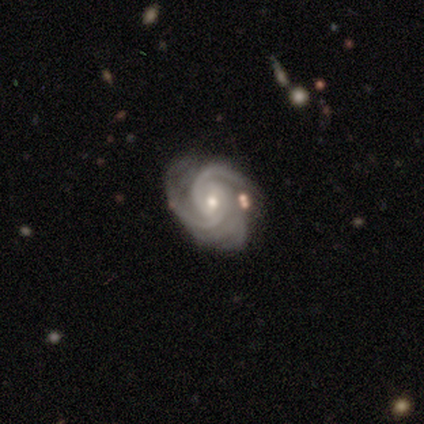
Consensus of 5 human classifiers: smooth_or_featured: featured or disk (p=1.00)
disk_edge_on: no (p=0.80) [alt: yes p=0.20]
bar: weak (p=0.50) [tied with: no p=0.50]
has_spiral_arms: yes (p=1.00)
spiral_winding: tight (p=0.75) [alt: medium p=0.25]
spiral_arm_count: 2 (p=0.50) [tied with: 4 p=0.50]
bulge_size: small (p=0.75) [alt: moderate p=0.25]
merging: none (p=1.00)